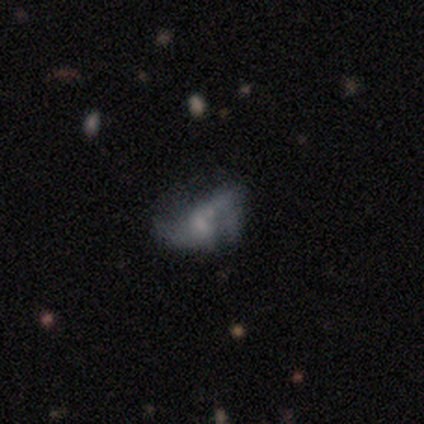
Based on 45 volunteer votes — Smooth or featured?
  - featured or disk: 60% *
  - smooth: 27%
  - star or artifact: 13%
Edge-on disk?
  - no: 96% *
  - yes: 4%
Bar?
  - no: 58% *
  - weak: 38%
  - strong: 4%
Spiral arms?
  - yes: 50% * (tied)
  - no: 50% * (tied)
Spiral winding?
  - loose: 69% *
  - medium: 31%
  - tight: 0%
Spiral arm count?
  - 2: 69% *
  - can't tell: 31%
  - 1: 0%
  - 3: 0%
  - 4: 0%
  - more than 4: 0%
Bulge size?
  - small: 46% *
  - moderate: 27%
  - none: 27%
  - dominant: 0%
  - large: 0%
Merging?
  - major disturbance: 44% *
  - none: 28%
  - merger: 21%
  - minor disturbance: 8%